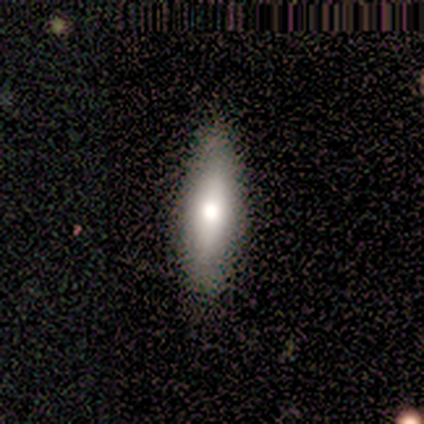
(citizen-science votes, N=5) This is clearly a smooth galaxy (100%). How rounded: likely in between (60%). Merging: clearly none (100%).